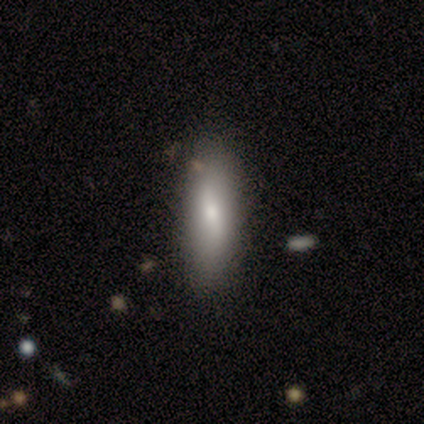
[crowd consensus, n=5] Smooth or featured? 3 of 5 (60%) said smooth. How rounded? 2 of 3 (67%) said in between. Merging? 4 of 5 (80%) said none.